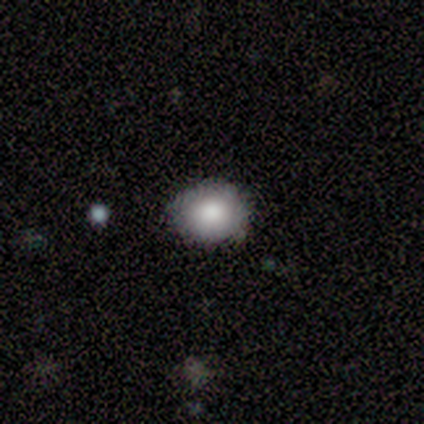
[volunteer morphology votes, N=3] Smooth or featured?
  - smooth: 67% *
  - featured or disk: 33%
  - star or artifact: 0%
How rounded?
  - round: 100% *
  - in between: 0%
  - cigar-shaped: 0%
Merging?
  - none: 67% *
  - minor disturbance: 33%
  - major disturbance: 0%
  - merger: 0%